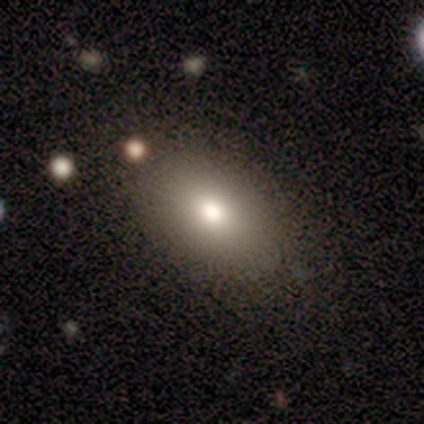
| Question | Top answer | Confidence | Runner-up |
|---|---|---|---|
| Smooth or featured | smooth | 65% | star or artifact (20%) |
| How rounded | in between | 85% | round (12%) |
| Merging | none | 81% | minor disturbance (16%) |